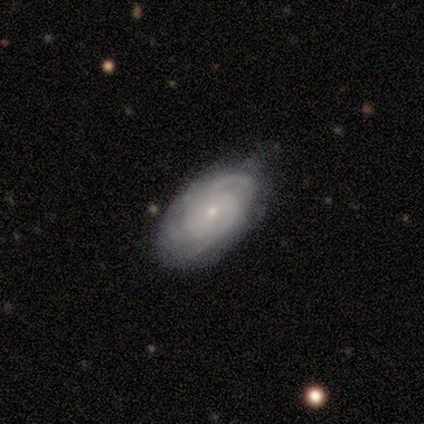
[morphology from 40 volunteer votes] A featured or disk galaxy (80%) with no bar (73%), 3 (41%) tight (69%) spiral arms (97%) and a small central bulge (80%).

Vote fractions:
- Smooth or featured? featured or disk: 80% / smooth: 15% / star or artifact: 5%
- Edge-on disk? no: 94% / yes: 6%
- Bar? no: 73% / weak: 27% / strong: 0%
- Spiral arms? yes: 97% / no: 3%
- Spiral winding? tight: 69% / medium: 28% / loose: 3%
- Spiral arm count? 3: 41% / can't tell: 28% / 2: 10% / 4: 10% / more than 4: 10% / 1: 0%
- Bulge size? small: 80% / moderate: 17% / large: 3% / dominant: 0% / none: 0%
- Merging? none: 82% / minor disturbance: 18% / major disturbance: 0% / merger: 0%